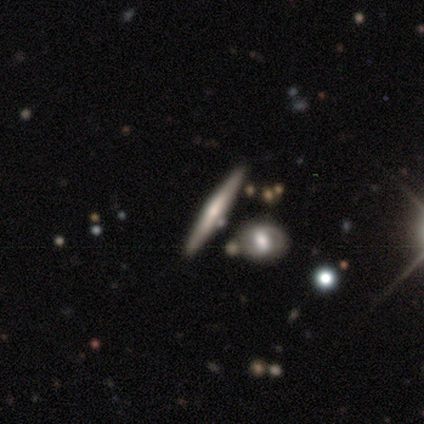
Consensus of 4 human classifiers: This appears to be a featured or disk galaxy (100%) viewed edge-on (100%) with a boxy central bulge (50%). Merging: none (75%).